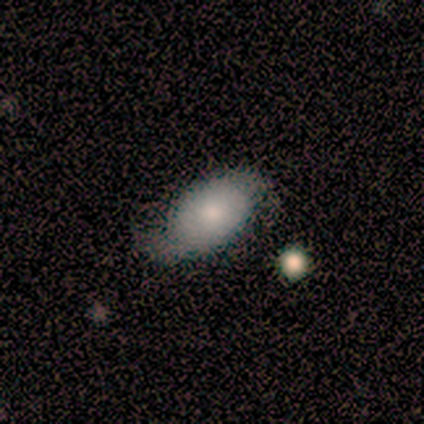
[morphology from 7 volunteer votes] A featured or disk galaxy (71%) with no bar (80%), 2 (100%) tight (40%, tied with loose) spiral arms (100%) and a large central bulge (40%, tied with none).

Vote fractions:
- Smooth or featured? featured or disk: 71% / smooth: 29% / star or artifact: 0%
- Edge-on disk? no: 100% / yes: 0%
- Bar? no: 80% / weak: 20% / strong: 0%
- Spiral arms? yes: 100% / no: 0%
- Spiral winding? tight: 40% (tied) / loose: 40% (tied) / medium: 20%
- Spiral arm count? 2: 100% / 1: 0% / 3: 0% / 4: 0% / more than 4: 0% / can't tell: 0%
- Bulge size? large: 40% (tied) / none: 40% (tied) / moderate: 20% / dominant: 0% / small: 0%
- Merging? none: 71% / minor disturbance: 29% / major disturbance: 0% / merger: 0%